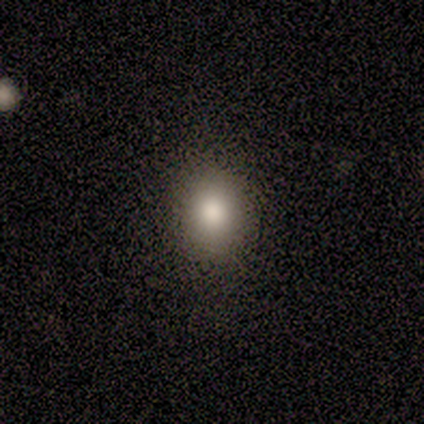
Overall: smooth (85%). How rounded: round (55%; in between 45%). Merging: none (59%).